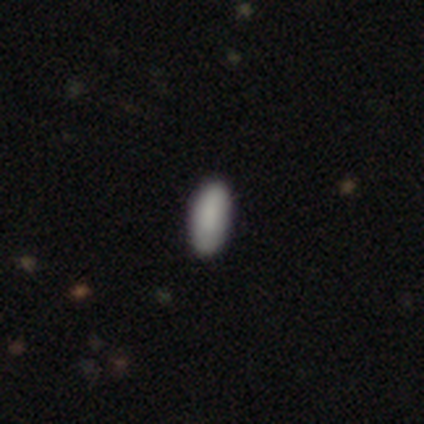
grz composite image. It shows a smooth galaxy with no disk features (100%) that is in between round and cigar-shaped (67%). Merging: none (100%).